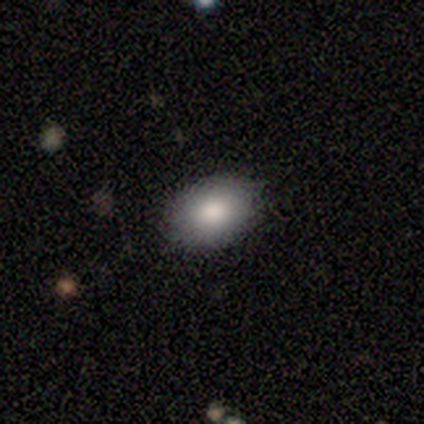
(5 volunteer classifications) smooth 80%, featured or disk 20%, star or artifact 0%. Down the decision tree: how rounded — in between (100%); merging — none (100%).